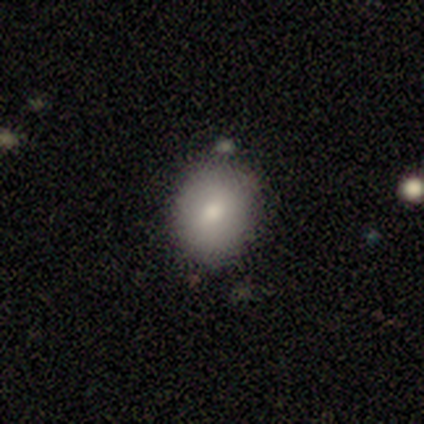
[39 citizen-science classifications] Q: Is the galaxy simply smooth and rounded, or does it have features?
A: smooth — 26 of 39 (67%).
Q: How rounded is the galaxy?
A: round — 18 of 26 (69%).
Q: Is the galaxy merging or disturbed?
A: none — 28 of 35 (80%).